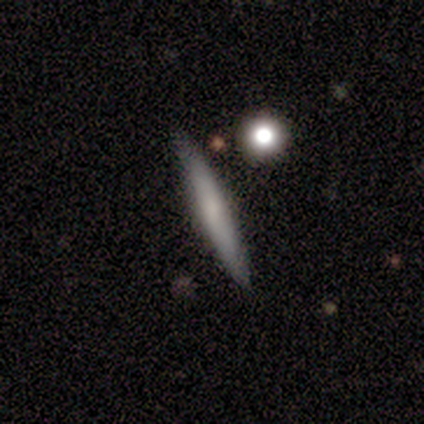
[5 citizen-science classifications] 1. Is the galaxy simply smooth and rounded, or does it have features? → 60% smooth, 40% featured or disk, 0% star or artifact.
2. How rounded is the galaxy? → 100% cigar-shaped, 0% round, 0% in between.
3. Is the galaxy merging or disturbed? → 100% none, 0% minor disturbance, 0% major disturbance, 0% merger.